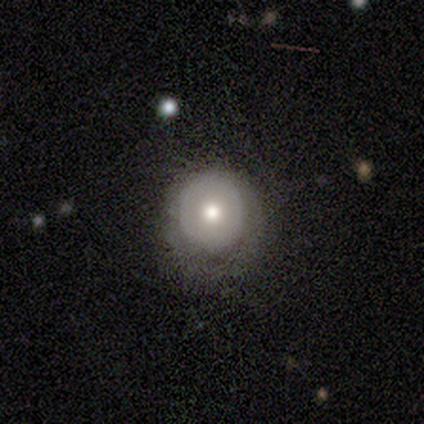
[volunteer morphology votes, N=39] Smooth or featured: smooth — 46% (featured or disk — 44%)
How rounded: round — 67% (in between — 33%)
Merging: none — 51% (minor disturbance — 31%)